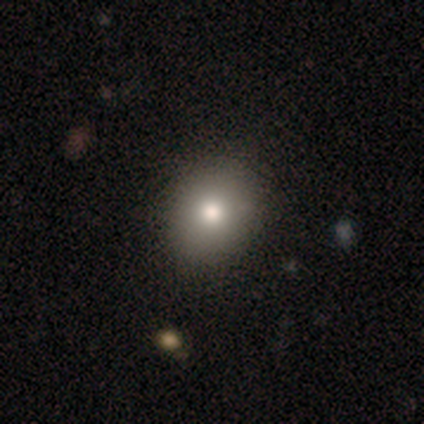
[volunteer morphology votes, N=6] Overall: smooth (100%). How rounded: round (83%). Merging: none (100%).